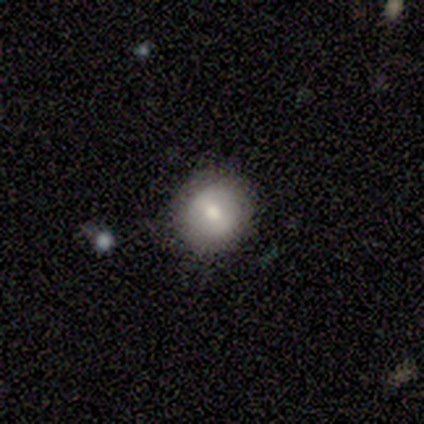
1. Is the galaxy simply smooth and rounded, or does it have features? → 40% smooth (tied), 40% featured or disk (tied), 20% star or artifact.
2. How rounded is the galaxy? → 50% round (tied), 50% cigar-shaped (tied), 0% in between.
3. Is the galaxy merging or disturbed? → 100% none, 0% minor disturbance, 0% major disturbance, 0% merger.